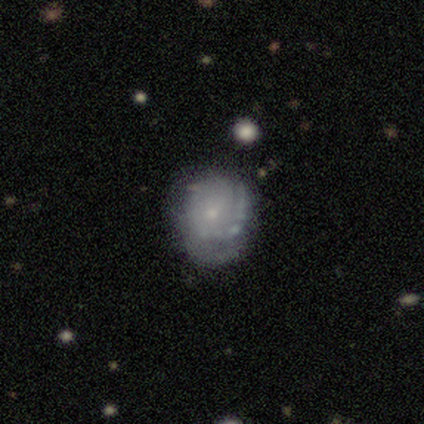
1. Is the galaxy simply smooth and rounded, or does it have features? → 60% featured or disk, 20% smooth, 20% star or artifact.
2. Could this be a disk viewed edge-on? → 100% no, 0% yes.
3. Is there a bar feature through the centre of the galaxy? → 67% no, 33% weak, 0% strong.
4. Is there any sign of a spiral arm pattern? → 100% yes, 0% no.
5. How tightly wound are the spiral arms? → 67% tight, 33% loose, 0% medium.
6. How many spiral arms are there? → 67% 1, 33% 3, 0% 2, 0% 4, 0% more than 4, 0% can't tell.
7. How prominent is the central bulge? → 100% small, 0% dominant, 0% large, 0% moderate, 0% none.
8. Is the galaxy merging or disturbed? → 50% none, 25% minor disturbance, 25% merger, 0% major disturbance.